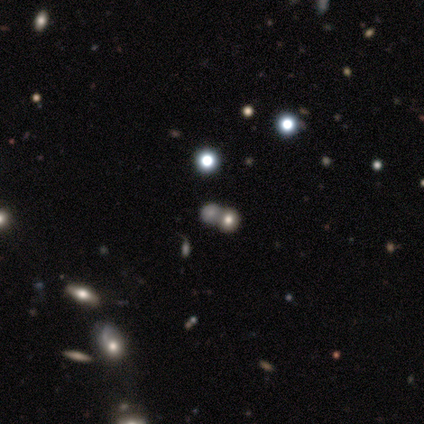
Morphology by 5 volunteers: smooth-or-featured: star or artifact: 60% | smooth: 40% | featured or disk: 0%